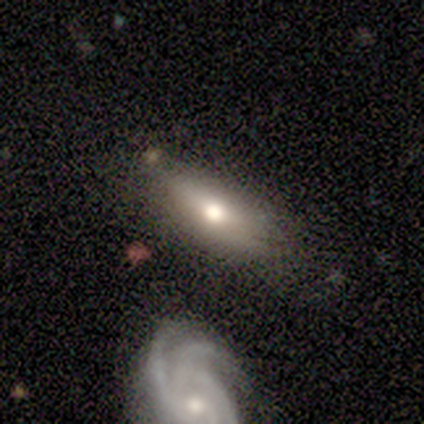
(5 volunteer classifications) smooth_or_featured: smooth (p=0.60) [alt: featured or disk p=0.40]
how_rounded: in between (p=1.00)
merging: none (p=0.80) [alt: merger p=0.20]